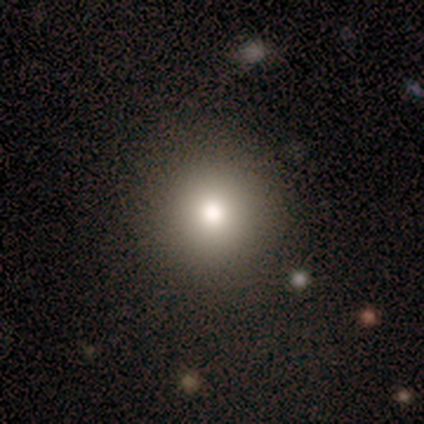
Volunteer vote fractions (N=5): A smooth galaxy with no disk features (80%) that is round (75%).

Vote fractions:
- Smooth or featured? smooth: 80% / star or artifact: 20% / featured or disk: 0%
- How rounded? round: 75% / in between: 25% / cigar-shaped: 0%
- Merging? none: 50% / minor disturbance: 25% / major disturbance: 25% / merger: 0%